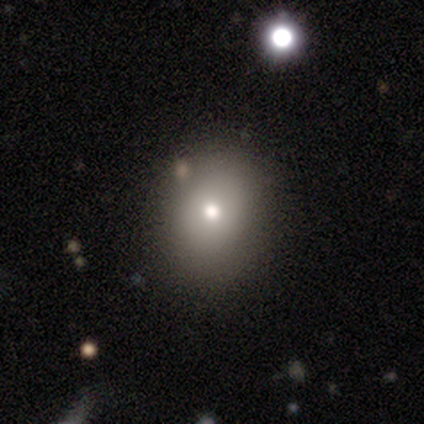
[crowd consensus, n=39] Smooth or featured? smooth (62%)
How rounded? in between (54%)
Merging? none (73%)